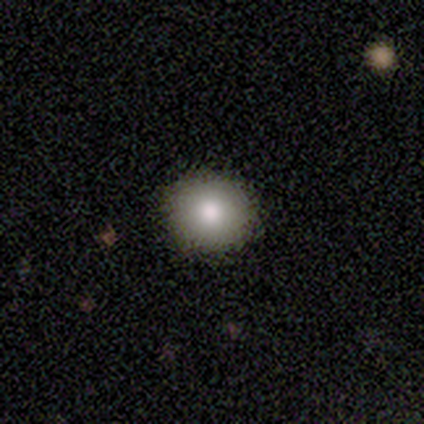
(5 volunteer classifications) smooth-or-featured: smooth: 100% | featured or disk: 0% | star or artifact: 0%
  how-rounded: round: 100% | in between: 0% | cigar-shaped: 0%
  merging: none: 100% | minor disturbance: 0% | major disturbance: 0% | merger: 0%